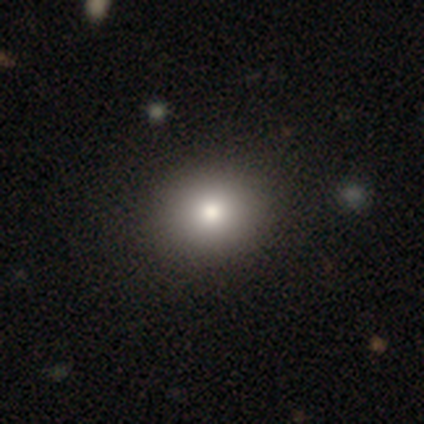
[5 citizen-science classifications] A smooth galaxy with no disk features (80%) that is round (50%, tied with in between).

Vote fractions:
- Smooth or featured? smooth: 80% / star or artifact: 20% / featured or disk: 0%
- How rounded? round: 50% (tied) / in between: 50% (tied) / cigar-shaped: 0%
- Merging? none: 100% / minor disturbance: 0% / major disturbance: 0% / merger: 0%